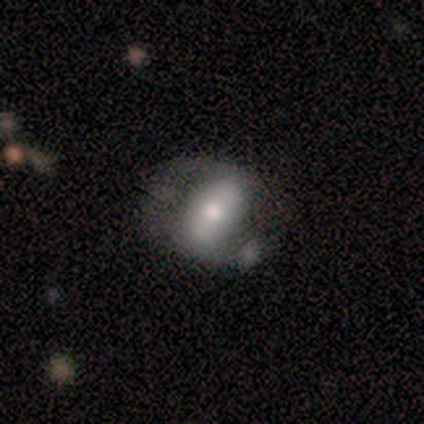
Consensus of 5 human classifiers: Smooth or featured: featured or disk — 60% (smooth — 40%)
Edge-on disk: no — 100%
Bar: strong — 67% (no — 33%)
Spiral arms: no — 100%
Bulge size: moderate — 100%
Merging: none — 40% (tied with minor disturbance — 40%)